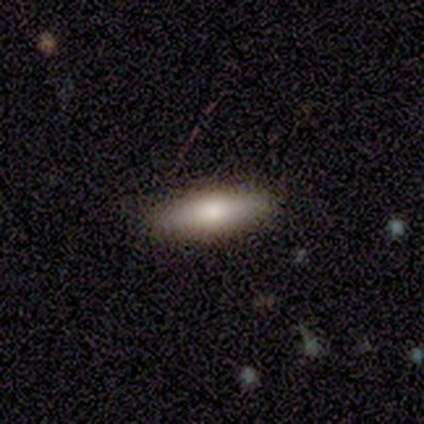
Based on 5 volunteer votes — Smooth or featured?
  - smooth: 60% *
  - featured or disk: 20%
  - star or artifact: 20%
How rounded?
  - in between: 100% *
  - round: 0%
  - cigar-shaped: 0%
Merging?
  - none: 75% *
  - minor disturbance: 25%
  - major disturbance: 0%
  - merger: 0%